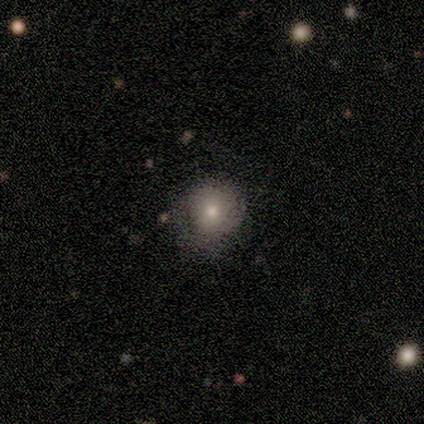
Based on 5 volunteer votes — A smooth galaxy with no disk features (100%) that is round (100%).

Vote fractions:
- Smooth or featured? smooth: 100% / featured or disk: 0% / star or artifact: 0%
- How rounded? round: 100% / in between: 0% / cigar-shaped: 0%
- Merging? none: 100% / minor disturbance: 0% / major disturbance: 0% / merger: 0%